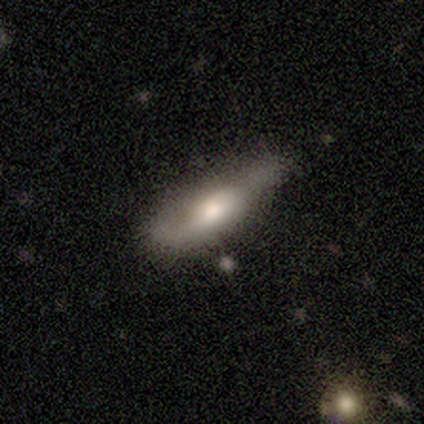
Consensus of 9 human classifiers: Morphology: type=smooth (78%); roundness=in between (71%); merging=none (44%).